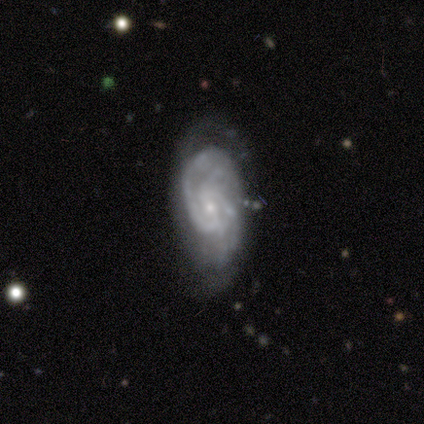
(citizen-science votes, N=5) A featured or disk galaxy (80%) with a weak bar (50%), 2 (50%) medium (50%) spiral arms (100%) and a small central bulge (100%).

Vote fractions:
- Smooth or featured? featured or disk: 80% / smooth: 20% / star or artifact: 0%
- Edge-on disk? no: 100% / yes: 0%
- Bar? weak: 50% / strong: 25% / no: 25%
- Spiral arms? yes: 100% / no: 0%
- Spiral winding? medium: 50% / tight: 25% / loose: 25%
- Spiral arm count? 2: 50% / 3: 25% / can't tell: 25% / 1: 0% / 4: 0% / more than 4: 0%
- Bulge size? small: 100% / dominant: 0% / large: 0% / moderate: 0% / none: 0%
- Merging? none: 80% / major disturbance: 20% / minor disturbance: 0% / merger: 0%